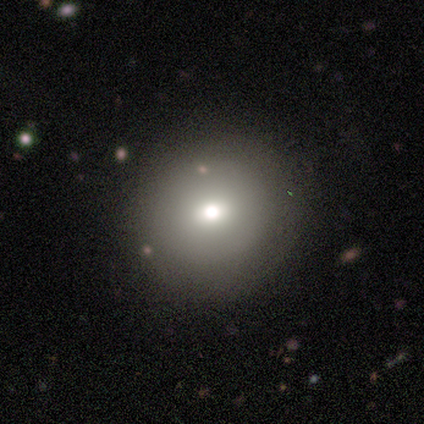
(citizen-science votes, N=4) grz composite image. It shows a smooth galaxy with no disk features (100%) that is round (100%). Merging: none (100%).